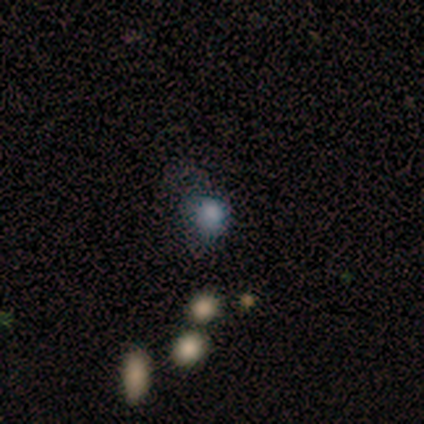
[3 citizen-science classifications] Smooth or featured? smooth (100%)
How rounded? in between (100%)
Merging? major disturbance (67%)